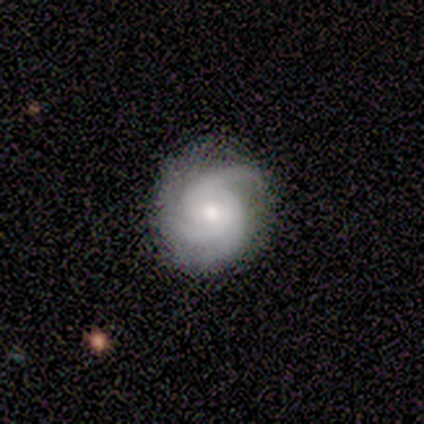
A featured or disk galaxy (97%) with no bar (69%), 3 (77%) tight (63%) spiral arms (100%) and a moderate central bulge (57%).

Vote fractions:
- Smooth or featured? featured or disk: 97% / star or artifact: 3% / smooth: 0%
- Edge-on disk? no: 95% / yes: 5%
- Bar? no: 69% / weak: 26% / strong: 6%
- Spiral arms? yes: 100% / no: 0%
- Spiral winding? tight: 63% / medium: 31% / loose: 6%
- Spiral arm count? 3: 77% / 2: 11% / can't tell: 9% / 1: 3% / 4: 0% / more than 4: 0%
- Bulge size? moderate: 57% / small: 37% / large: 6% / dominant: 0% / none: 0%
- Merging? none: 86% / minor disturbance: 8% / major disturbance: 5% / merger: 0%